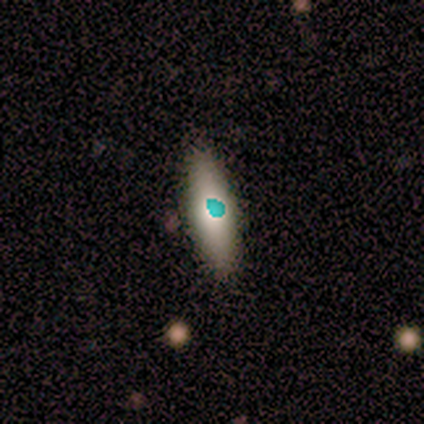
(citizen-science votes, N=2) This is possibly a smooth galaxy (50%, tied with star or artifact). How rounded: clearly cigar-shaped (100%). Merging: clearly none (100%).